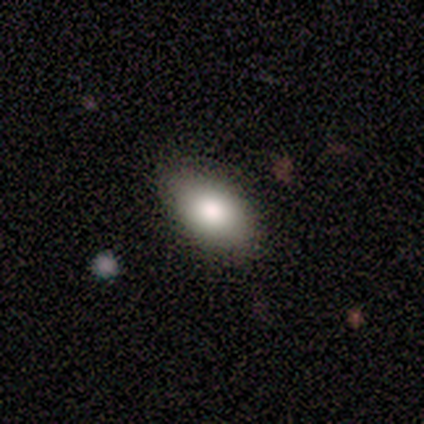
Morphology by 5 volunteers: smooth 80%, star or artifact 20%, featured or disk 0%. Down the decision tree: how rounded — in between (100%); merging — none (100%).